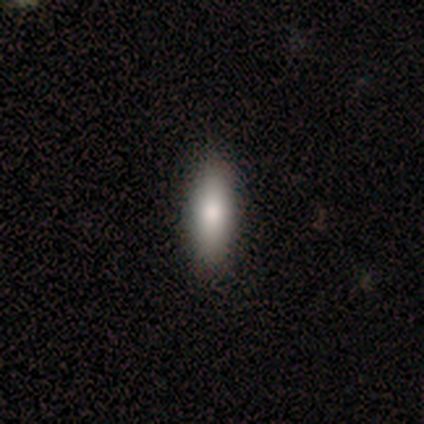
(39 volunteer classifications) This appears to be a smooth galaxy with no disk features (90%) that is cigar-shaped (54%). Merging: none (68%).